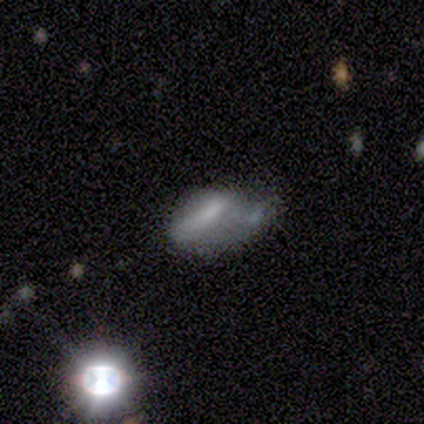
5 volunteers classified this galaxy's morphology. This is likely a smooth galaxy (60%). How rounded: clearly cigar-shaped (100%). Merging: marginally merger (40%).